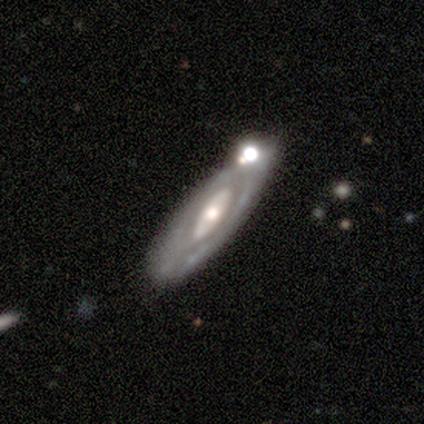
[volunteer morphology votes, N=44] Smooth or featured? featured or disk (89%)
Edge-on disk? no (85%)
Bar? no (70%)
Spiral arms? no (52%)
Bulge size? moderate (70%)
Merging? none (64%)